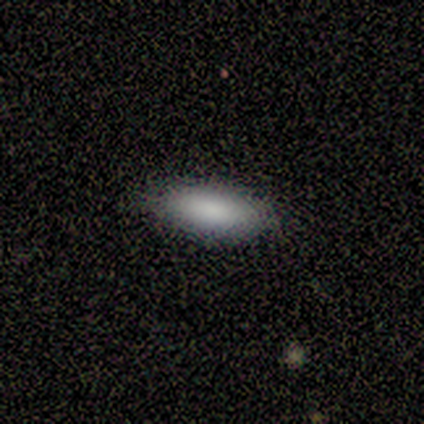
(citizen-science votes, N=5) Overall: smooth (80%). How rounded: in between (75%). Merging: none (60%; minor disturbance 40%).